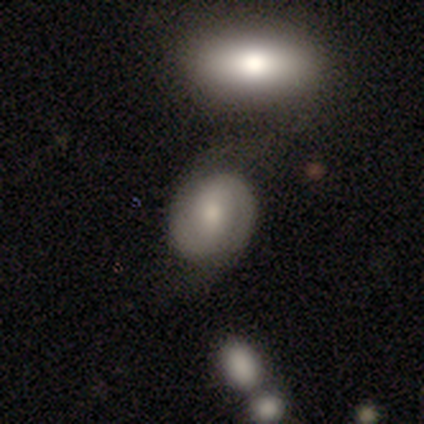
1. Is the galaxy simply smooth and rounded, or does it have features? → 80% smooth, 20% featured or disk, 0% star or artifact.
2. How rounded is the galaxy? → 50% round (tied), 50% in between (tied), 0% cigar-shaped.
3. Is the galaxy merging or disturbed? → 80% none, 20% minor disturbance, 0% major disturbance, 0% merger.